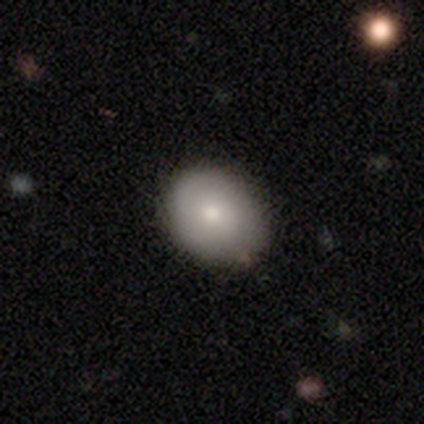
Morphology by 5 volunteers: Smooth or featured?
  - smooth: 80% *
  - featured or disk: 20%
  - star or artifact: 0%
How rounded?
  - in between: 75% *
  - round: 25%
  - cigar-shaped: 0%
Merging?
  - none: 80% *
  - minor disturbance: 20%
  - major disturbance: 0%
  - merger: 0%